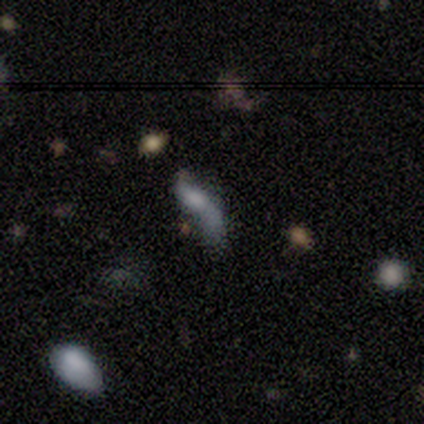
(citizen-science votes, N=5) Smooth or featured? 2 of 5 (40%, tied with featured or disk) said smooth. How rounded? 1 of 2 (50%, tied with cigar-shaped) said in between. Merging? 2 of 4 (50%) said merger.